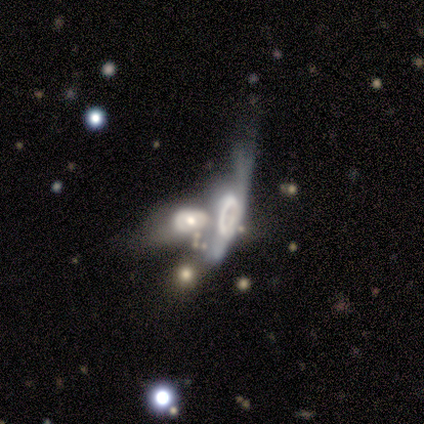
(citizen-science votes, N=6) Smooth or featured? featured or disk (83%)
Edge-on disk? yes (60%)
Edge-on bulge? boxy (67%)
Merging? merger (100%)